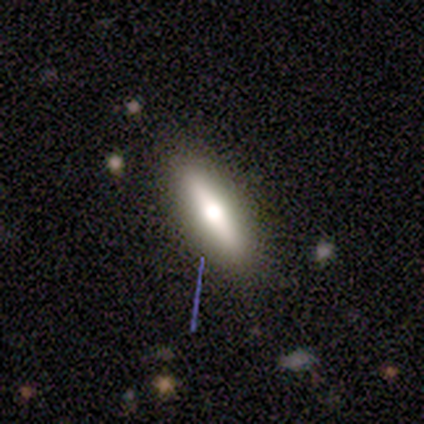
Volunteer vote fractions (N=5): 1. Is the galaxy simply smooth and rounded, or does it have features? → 80% featured or disk, 20% smooth, 0% star or artifact.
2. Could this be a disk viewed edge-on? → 100% yes, 0% no.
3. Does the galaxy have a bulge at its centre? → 100% rounded, 0% boxy, 0% none.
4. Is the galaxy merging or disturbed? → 100% none, 0% minor disturbance, 0% major disturbance, 0% merger.